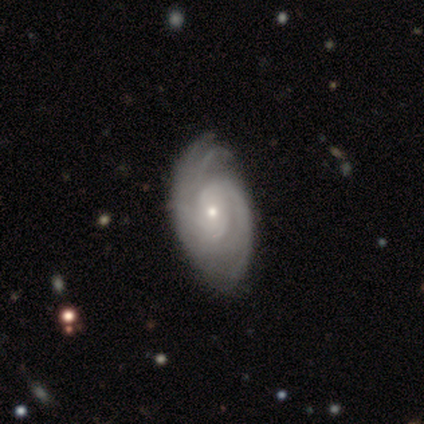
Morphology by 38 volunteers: Smooth or featured?
  - featured or disk: 100% *
  - smooth: 0%
  - star or artifact: 0%
Edge-on disk?
  - no: 100% *
  - yes: 0%
Bar?
  - no: 79% *
  - weak: 18%
  - strong: 3%
Spiral arms?
  - yes: 100% *
  - no: 0%
Spiral winding?
  - tight: 82% *
  - medium: 13%
  - loose: 5%
Spiral arm count?
  - can't tell: 39% *
  - 2: 24%
  - 4: 16%
  - 3: 13%
  - more than 4: 5%
  - 1: 3%
Bulge size?
  - small: 82% *
  - moderate: 16%
  - large: 3%
  - dominant: 0%
  - none: 0%
Merging?
  - none: 55% *
  - minor disturbance: 13%
  - major disturbance: 3%
  - merger: 0%